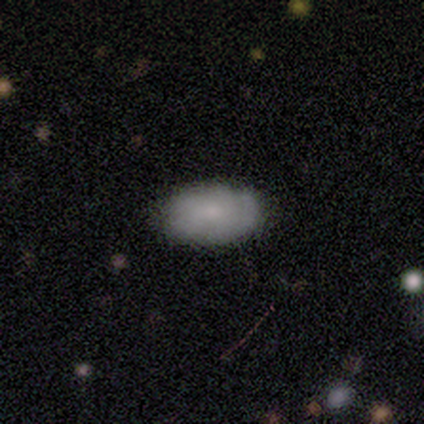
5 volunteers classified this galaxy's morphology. smooth 80%, featured or disk 20%, star or artifact 0%. Down the decision tree: how rounded — in between (100%); merging — none (80%).